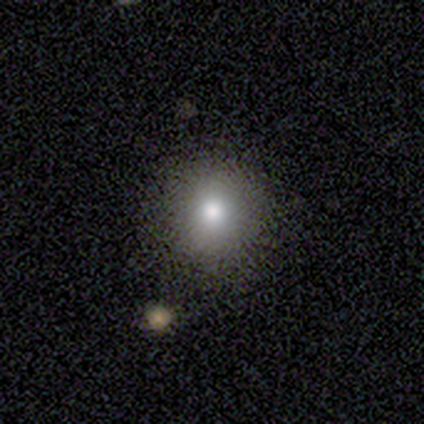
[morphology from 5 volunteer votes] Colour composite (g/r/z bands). It shows a smooth galaxy with no disk features (80%) that is round (100%). Merging: none (75%).